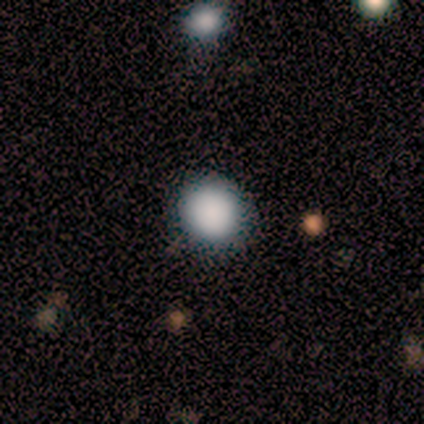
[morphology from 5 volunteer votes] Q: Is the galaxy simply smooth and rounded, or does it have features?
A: smooth — 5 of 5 (100%).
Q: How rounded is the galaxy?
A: round — 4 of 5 (80%).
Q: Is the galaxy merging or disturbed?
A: none — 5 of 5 (100%).